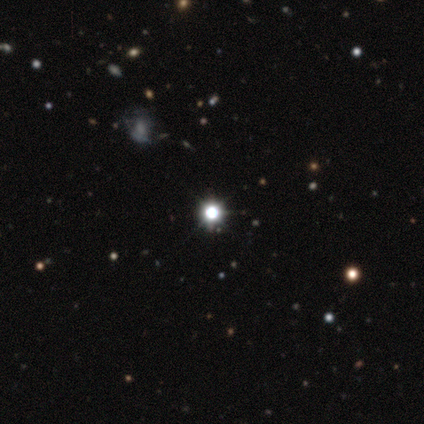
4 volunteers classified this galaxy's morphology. Overall: smooth (75%). How rounded: round (100%). Merging: none (100%).